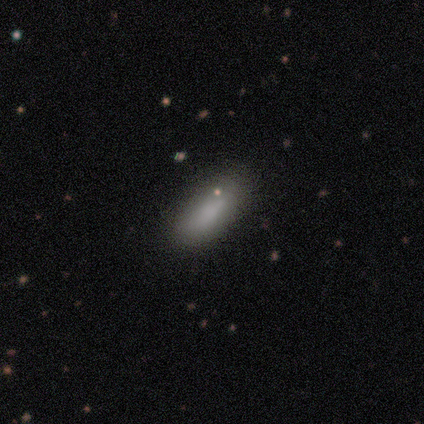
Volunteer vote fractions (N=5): This is clearly a smooth galaxy (100%). How rounded: clearly in between (80%). Merging: likely none (60%).